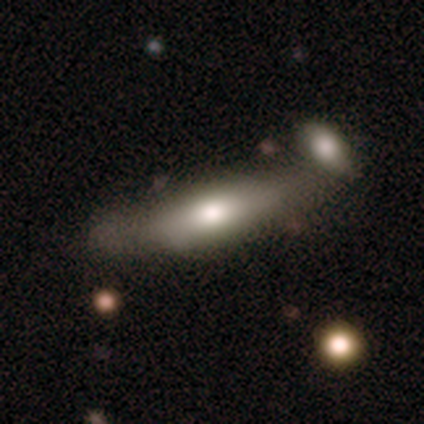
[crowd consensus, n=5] This is likely a featured or disk galaxy (60%). It is likely viewed edge-on (67%). Edge-on bulge: clearly rounded (100%). Merging: likely none (60%).